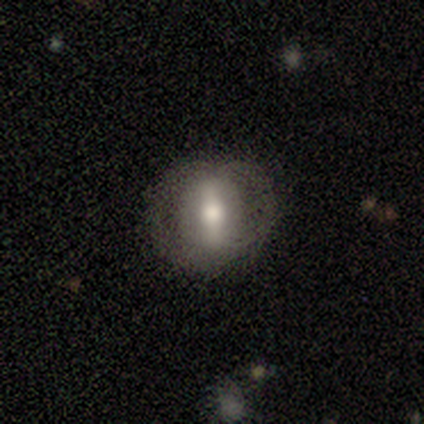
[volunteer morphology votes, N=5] This is likely a featured or disk galaxy (60%). It is clearly not viewed edge-on (100%). Bar: likely strong (67%). Spiral arm pattern: likely no (67%). Central bulge: likely moderate (67%). Merging: marginally none (40%).